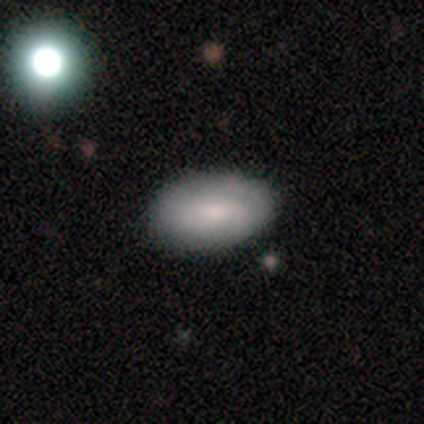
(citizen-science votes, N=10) smooth_or_featured: smooth (p=0.80) [alt: featured or disk p=0.20]
how_rounded: in between (p=1.00)
merging: none (p=0.60) [alt: minor disturbance p=0.30]